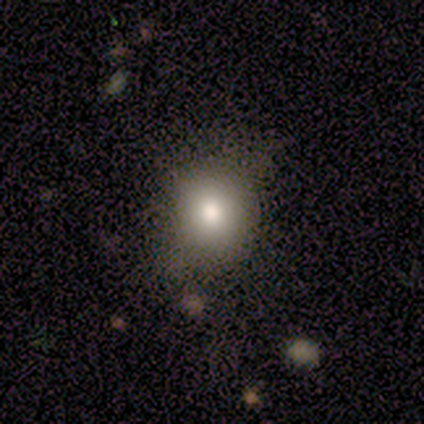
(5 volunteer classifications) smooth 100%, featured or disk 0%, star or artifact 0%. Down the decision tree: how rounded — round (80%); merging — none (80%).